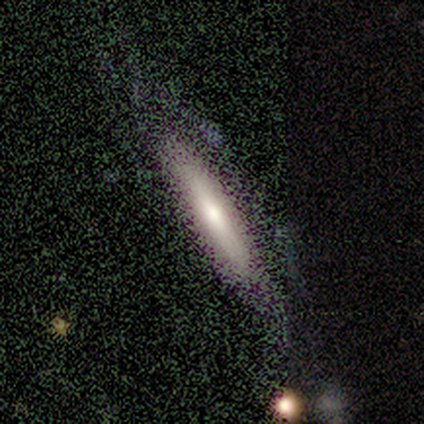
Smooth or featured? 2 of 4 (50%) said featured or disk. Edge-on disk? 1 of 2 (50%, tied with no) said yes. Edge-on bulge? 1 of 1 (100%) said boxy. Merging? 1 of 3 (33%, tied with minor disturbance and major disturbance) said none.